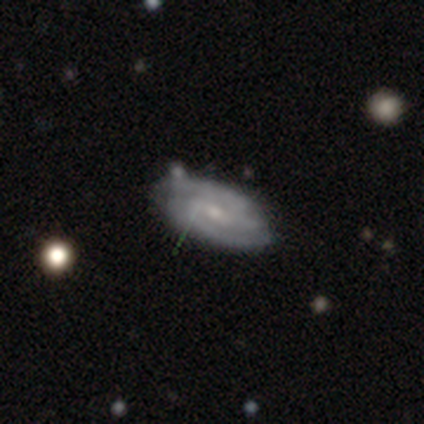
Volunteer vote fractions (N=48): Q: Smooth or featured?
A: featured or disk (77%); runner-up: smooth (17%)
Q: Edge-on disk?
A: no (95%); runner-up: yes (5%)
Q: Bar?
A: weak (51%); runner-up: no (43%)
Q: Spiral arms?
A: yes (94%); runner-up: no (6%)
Q: Spiral winding?
A: tight (45%); tied with: medium (45%)
Q: Spiral arm count?
A: 2 (73%); runner-up: 3 (21%)
Q: Bulge size?
A: small (80%); runner-up: moderate (17%)
Q: Merging?
A: none (71%); runner-up: minor disturbance (22%)